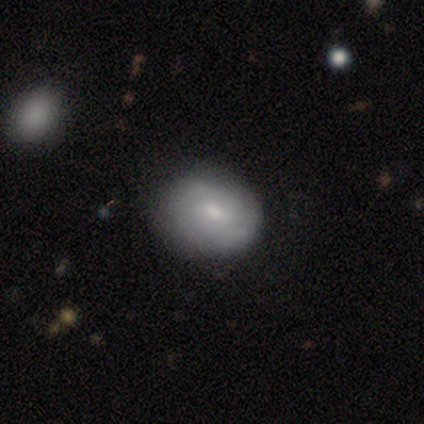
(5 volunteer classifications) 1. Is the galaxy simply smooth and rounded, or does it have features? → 60% smooth, 40% featured or disk, 0% star or artifact.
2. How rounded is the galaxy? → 67% in between, 33% round, 0% cigar-shaped.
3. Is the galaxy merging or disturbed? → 80% none, 20% minor disturbance, 0% major disturbance, 0% merger.